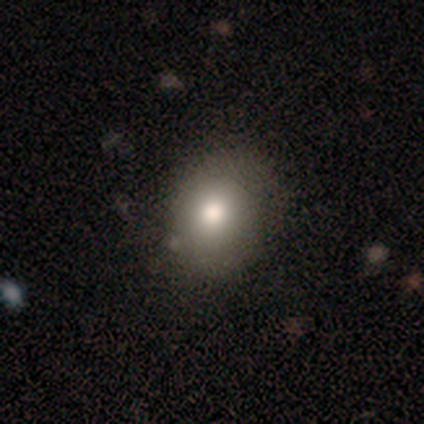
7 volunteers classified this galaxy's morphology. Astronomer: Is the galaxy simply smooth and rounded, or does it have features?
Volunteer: smooth — 71%.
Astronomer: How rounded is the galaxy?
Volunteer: round — 80%.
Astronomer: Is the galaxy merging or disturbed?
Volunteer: none — 50%, tied with minor disturbance at 50%.